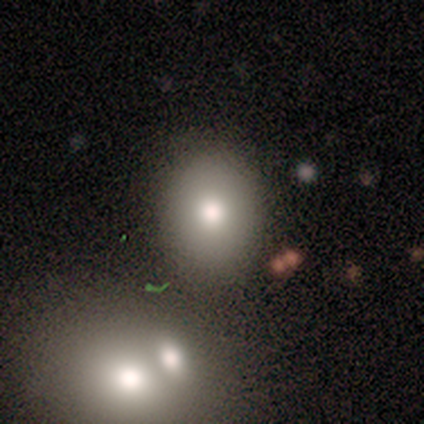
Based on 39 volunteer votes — smooth-or-featured: smooth: 85% | star or artifact: 10% | featured or disk: 5%
  how-rounded: round: 64% | in between: 36% | cigar-shaped: 0%
  merging: none: 57% | merger: 11% | minor disturbance: 6% | major disturbance: 3%